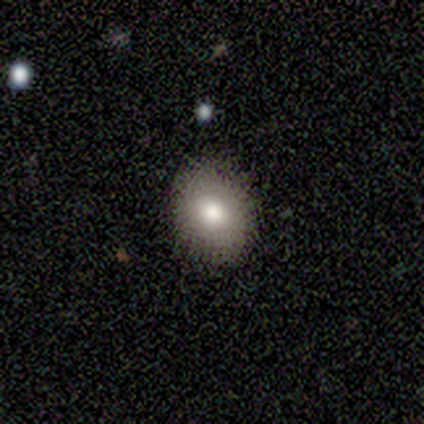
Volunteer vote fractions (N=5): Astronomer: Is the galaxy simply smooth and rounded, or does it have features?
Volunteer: smooth — 100%.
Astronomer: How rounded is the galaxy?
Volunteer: in between — 60% (runner-up: round, 40%).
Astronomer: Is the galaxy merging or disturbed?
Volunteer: none — 100%.